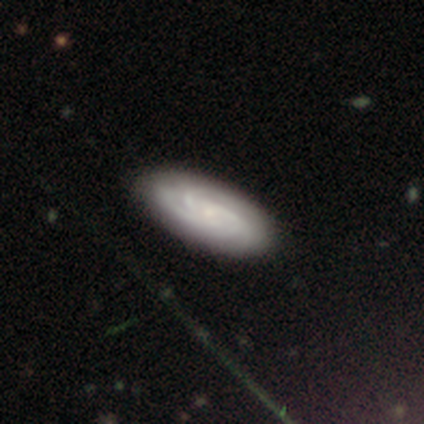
Volunteers were most divided on "spiral winding": tight: 60%, medium: 40%, loose: 0%. More confident: smooth or featured — featured or disk (100%); edge-on disk — no (100%); spiral arms — yes (100%); bar — no (80%); spiral arm count — 3 (80%); merging — none (80%); bulge size — small (60%).